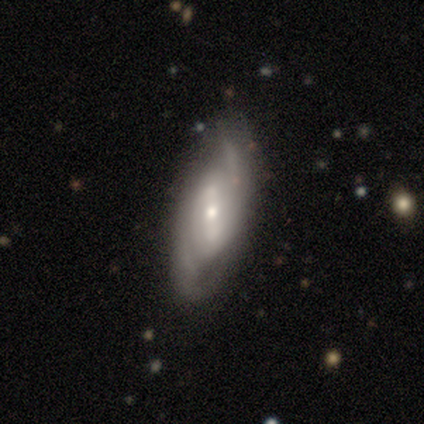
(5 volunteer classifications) Smooth or featured? featured or disk (100%)
Edge-on disk? no (80%)
Bar? weak (50%, tied with no)
Spiral arms? yes (75%)
Spiral winding? medium (67%)
Spiral arm count? can't tell (67%)
Bulge size? small (100%)
Merging? none (60%)